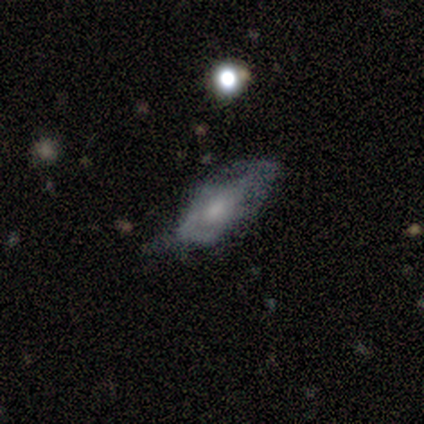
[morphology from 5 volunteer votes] Overall: featured or disk (60%; smooth 40%). Edge-on disk: no (100%). Bar: no (100%). Spiral arms: yes (100%). Spiral arm count: can't tell (67%; 2 33%). Spiral winding: tight (100%). Bulge size: moderate (33%, tied with small and none). Merging: none (40%, tied with major disturbance).